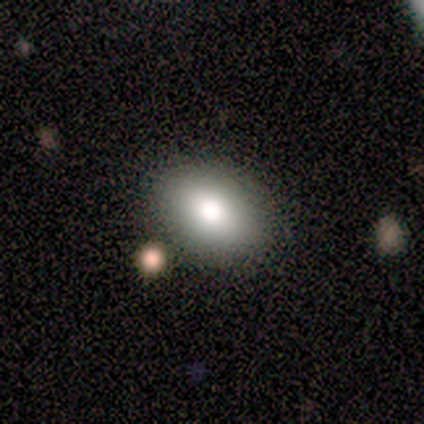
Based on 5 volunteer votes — Q: Smooth or featured?
A: smooth (60%); runner-up: featured or disk (20%)
Q: How rounded?
A: in between (100%)
Q: Merging?
A: none (100%)